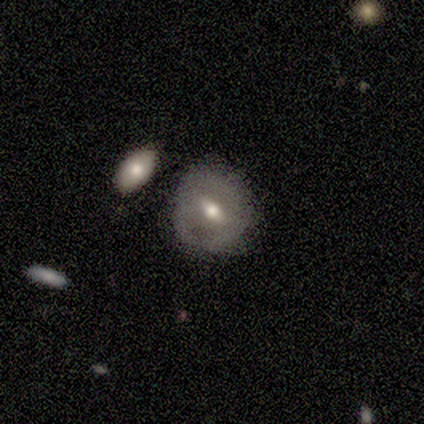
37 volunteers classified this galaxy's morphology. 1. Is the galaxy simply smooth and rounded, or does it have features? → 51% featured or disk, 46% smooth, 3% star or artifact.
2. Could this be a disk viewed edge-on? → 95% no, 5% yes.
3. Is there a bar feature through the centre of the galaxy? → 61% weak, 22% no, 17% strong.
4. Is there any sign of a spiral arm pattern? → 94% no, 6% yes.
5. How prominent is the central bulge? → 61% moderate, 28% small, 11% large, 0% dominant, 0% none.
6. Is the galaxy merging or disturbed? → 64% none, 28% minor disturbance, 6% merger, 3% major disturbance.